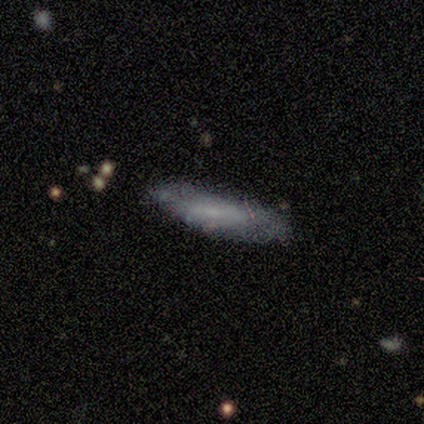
smooth-or-featured: featured or disk: 62% | smooth: 25% | star or artifact: 12%
  disk-edge-on: no: 80% | yes: 20%
    bar: weak: 50% | strong: 25% | no: 25%
    has-spiral-arms: no: 75% | yes: 25%
    bulge-size: small: 50% (tied) | none: 50% (tied) | dominant: 0% | large: 0% | moderate: 0%
  merging: minor disturbance: 57% | none: 43% | major disturbance: 0% | merger: 0%